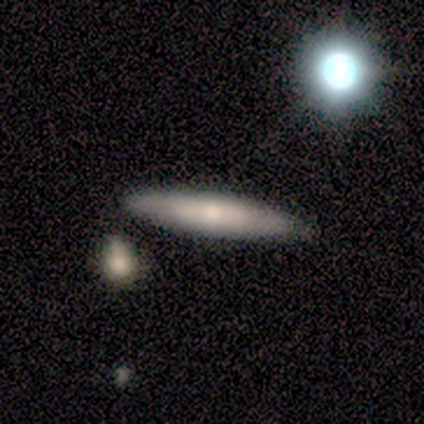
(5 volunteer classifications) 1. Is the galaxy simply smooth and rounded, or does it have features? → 60% featured or disk, 40% smooth, 0% star or artifact.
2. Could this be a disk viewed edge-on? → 67% yes, 33% no.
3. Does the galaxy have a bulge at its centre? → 100% none, 0% boxy, 0% rounded.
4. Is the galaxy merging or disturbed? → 100% none, 0% minor disturbance, 0% major disturbance, 0% merger.